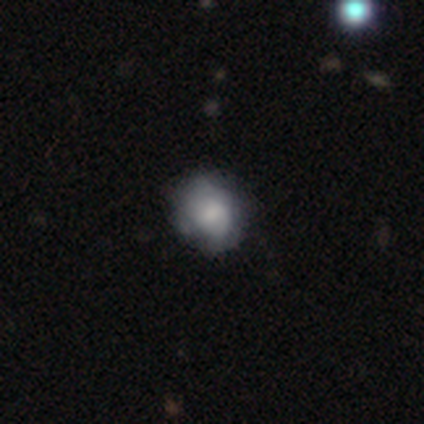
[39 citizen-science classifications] Overall: smooth (79%). How rounded: round (77%). Merging: none (66%; minor disturbance 26%).